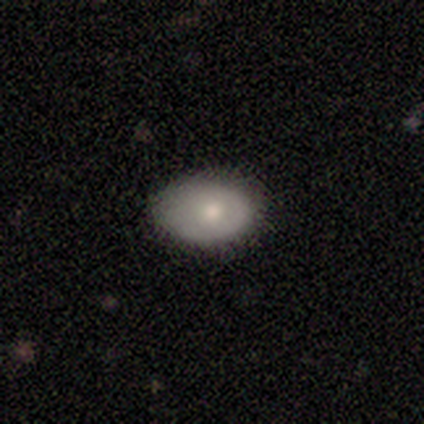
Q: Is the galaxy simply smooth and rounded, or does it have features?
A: smooth — 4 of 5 (80%).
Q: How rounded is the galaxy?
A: in between — 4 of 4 (100%).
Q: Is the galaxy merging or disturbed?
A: none — 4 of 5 (80%).